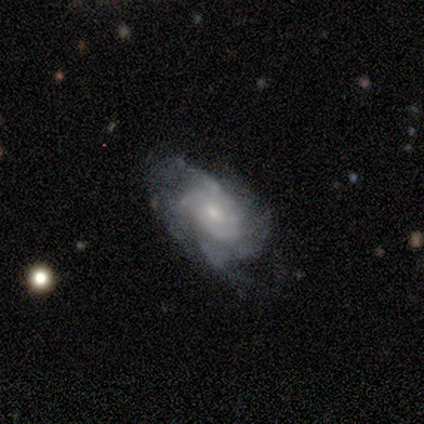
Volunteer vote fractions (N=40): Smooth or featured: featured or disk — 92% (smooth — 8%)
Edge-on disk: no — 97% (yes — 3%)
Bar: no — 69% (weak — 31%)
Spiral arms: yes — 97% (no — 3%)
Spiral winding: tight — 57% (medium — 37%)
Spiral arm count: can't tell — 54% (3 — 20%)
Bulge size: small — 72% (moderate — 22%)
Merging: none — 48% (minor disturbance — 20%)